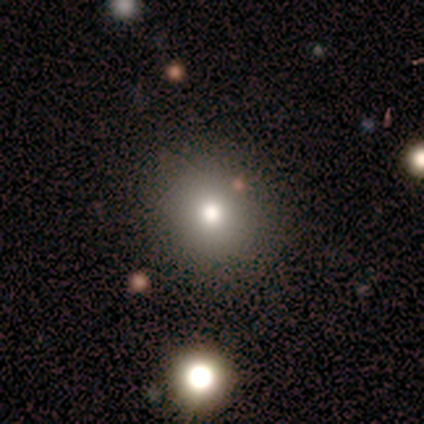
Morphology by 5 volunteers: Smooth or featured? 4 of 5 (80%) said smooth. How rounded? 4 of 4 (100%) said round. Merging? 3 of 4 (75%) said none.